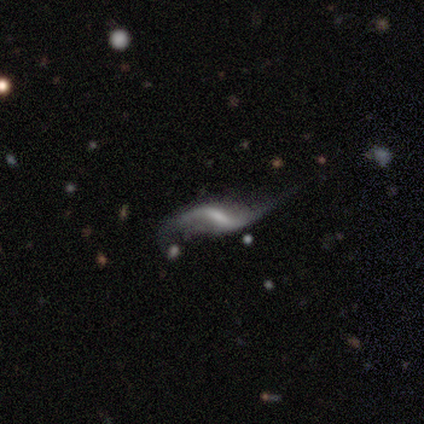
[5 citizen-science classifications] smooth_or_featured: featured or disk (p=0.80) [alt: star or artifact p=0.20]
disk_edge_on: no (p=1.00)
bar: strong (p=0.50) [alt: weak p=0.25]
has_spiral_arms: yes (p=0.75) [alt: no p=0.25]
spiral_winding: loose (p=1.00)
spiral_arm_count: 2 (p=1.00)
bulge_size: moderate (p=0.50) [tied with: small p=0.50]
merging: major disturbance (p=0.50) [alt: none p=0.25]